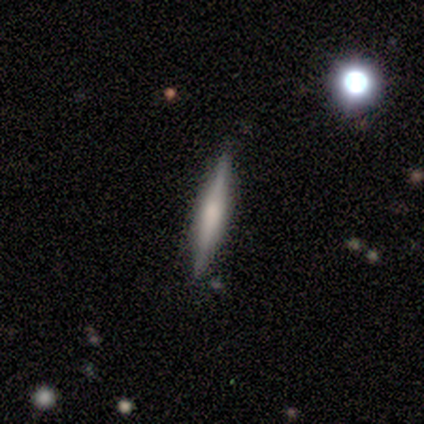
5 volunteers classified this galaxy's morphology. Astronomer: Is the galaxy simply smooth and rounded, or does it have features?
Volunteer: smooth — 60% (runner-up: featured or disk, 40%).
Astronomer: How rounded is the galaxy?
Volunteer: cigar-shaped — 100%.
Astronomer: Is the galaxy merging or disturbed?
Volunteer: none — 80%.